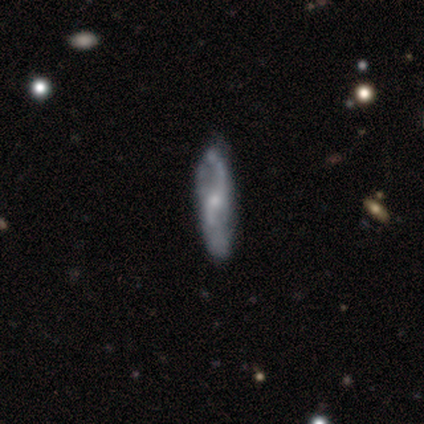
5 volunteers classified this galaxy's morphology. Smooth or featured? 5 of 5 (100%) said featured or disk. Edge-on disk? 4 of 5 (80%) said no. Bar? 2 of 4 (50%, tied with no) said weak. Spiral arms? 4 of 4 (100%) said yes. Spiral winding? 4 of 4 (100%) said loose. Spiral arm count? 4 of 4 (100%) said 2. Bulge size? 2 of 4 (50%) said small. Merging? 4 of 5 (80%) said none.